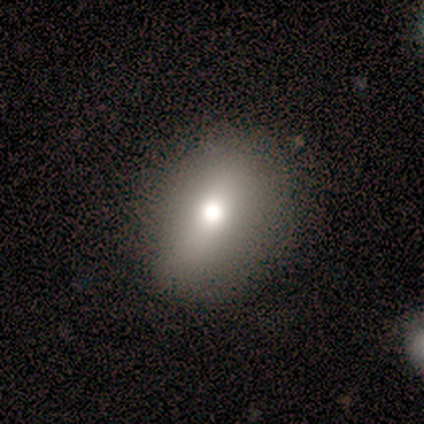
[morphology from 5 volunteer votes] Smooth or featured? smooth (80%)
How rounded? round (50%, tied with in between)
Merging? none (100%)